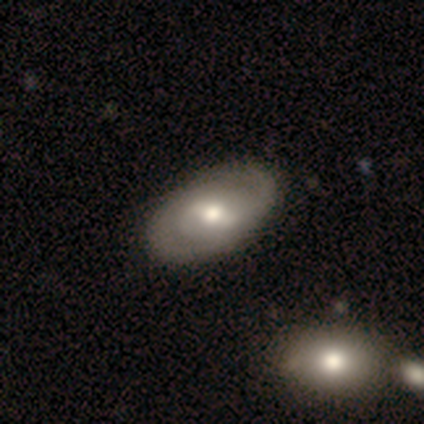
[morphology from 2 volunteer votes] Q: Smooth or featured?
A: featured or disk (100%)
Q: Edge-on disk?
A: no (100%)
Q: Bar?
A: weak (100%)
Q: Spiral arms?
A: yes (100%)
Q: Spiral winding?
A: medium (50%); tied with: loose (50%)
Q: Spiral arm count?
A: 2 (50%); tied with: can't tell (50%)
Q: Bulge size?
A: moderate (100%)
Q: Merging?
A: none (50%); tied with: minor disturbance (50%)